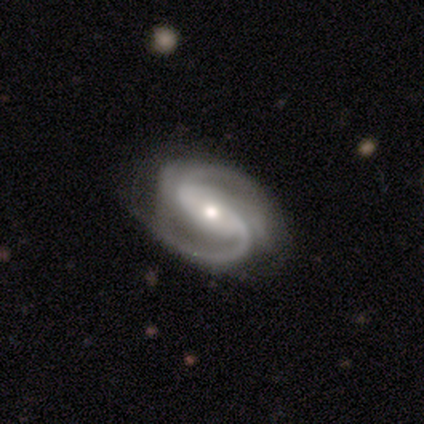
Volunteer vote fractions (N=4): This is likely a featured or disk galaxy (75%). It is clearly not viewed edge-on (100%). Bar: marginally strong (33%, tied with weak and no). Spiral arm pattern: clearly yes (100%). Spiral arm count: likely 2 (67%). Spiral winding: clearly medium (100%). Central bulge: marginally moderate (33%, tied with small and none). Merging: likely none (67%).